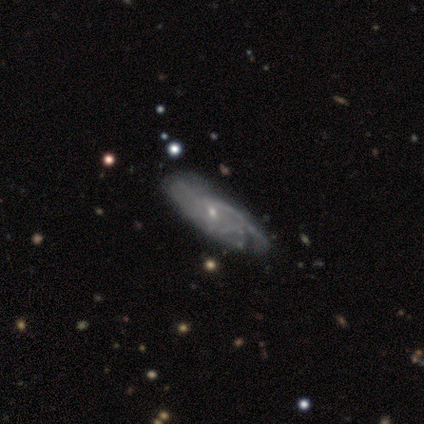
This is clearly a featured or disk galaxy (82%). It is clearly not viewed edge-on (85%). Bar: likely no (79%). Spiral arm pattern: likely yes (64%). Spiral arm count: likely can't tell (67%). Spiral winding: marginally medium (44%). Central bulge: clearly small (82%). Merging: marginally none (33%).